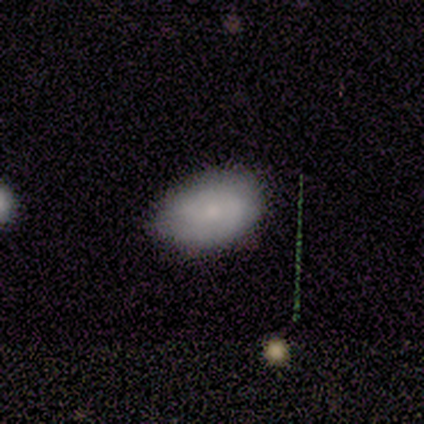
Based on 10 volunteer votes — smooth-or-featured: smooth: 70% | featured or disk: 30% | star or artifact: 0%
  how-rounded: in between: 100% | round: 0% | cigar-shaped: 0%
  merging: none: 70% | minor disturbance: 30% | major disturbance: 0% | merger: 0%